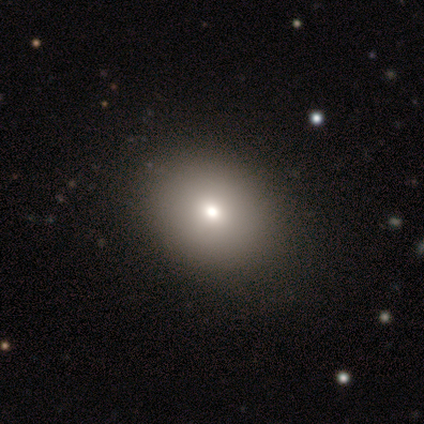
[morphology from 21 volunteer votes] Smooth or featured?
  - smooth: 76% *
  - star or artifact: 14%
  - featured or disk: 10%
How rounded?
  - in between: 62% *
  - round: 38%
  - cigar-shaped: 0%
Merging?
  - none: 89% *
  - minor disturbance: 11%
  - major disturbance: 0%
  - merger: 0%